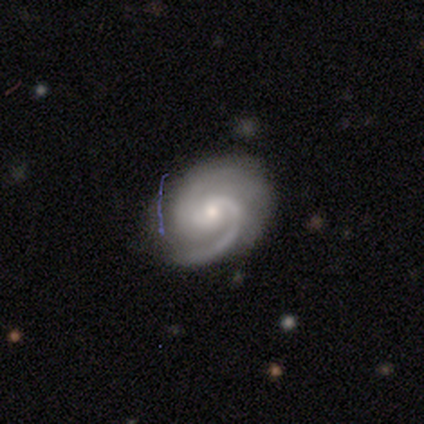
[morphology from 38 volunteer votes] This is clearly a featured or disk galaxy (89%). It is clearly not viewed edge-on (100%). Bar: possibly no (56%). Spiral arm pattern: clearly yes (97%). Spiral arm count: likely 2 (76%). Spiral winding: possibly medium (55%). Central bulge: likely small (68%). Merging: likely none (77%).